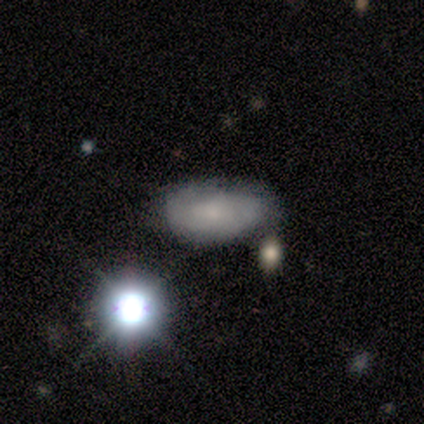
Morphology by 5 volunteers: A smooth galaxy with no disk features (80%) that is in between round and cigar-shaped (75%).

Vote fractions:
- Smooth or featured? smooth: 80% / featured or disk: 20% / star or artifact: 0%
- How rounded? in between: 75% / round: 25% / cigar-shaped: 0%
- Merging? minor disturbance: 40% (tied) / merger: 40% (tied) / none: 20% / major disturbance: 0%